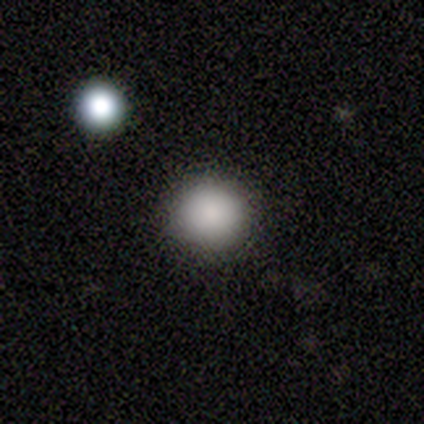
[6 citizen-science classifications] A smooth galaxy with no disk features (100%) that is round (83%).

Vote fractions:
- Smooth or featured? smooth: 100% / featured or disk: 0% / star or artifact: 0%
- How rounded? round: 83% / in between: 17% / cigar-shaped: 0%
- Merging? none: 100% / minor disturbance: 0% / major disturbance: 0% / merger: 0%